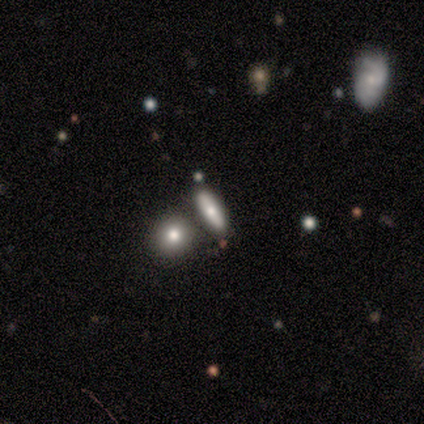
Q: Smooth or featured?
A: smooth (100%)
Q: How rounded?
A: in between (60%); runner-up: cigar-shaped (40%)
Q: Merging?
A: none (80%); runner-up: minor disturbance (20%)